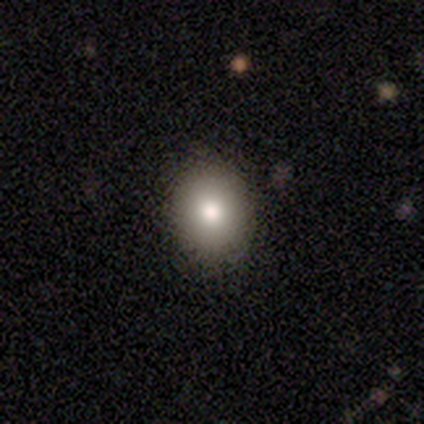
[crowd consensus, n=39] Smooth or featured? 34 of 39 (87%) said smooth. How rounded? 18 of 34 (53%) said round. Merging? 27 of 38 (71%) said none.